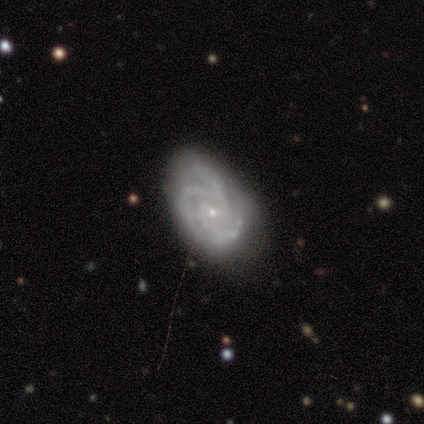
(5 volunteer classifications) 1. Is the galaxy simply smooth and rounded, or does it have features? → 100% featured or disk, 0% smooth, 0% star or artifact.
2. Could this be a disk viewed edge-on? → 100% no, 0% yes.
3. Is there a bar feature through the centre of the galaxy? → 60% no, 40% weak, 0% strong.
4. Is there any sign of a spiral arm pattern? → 100% yes, 0% no.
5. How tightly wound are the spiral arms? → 40% tight (tied), 40% medium (tied), 20% loose.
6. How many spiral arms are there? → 40% 3, 20% 2, 20% 4, 20% can't tell, 0% 1, 0% more than 4.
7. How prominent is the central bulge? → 100% small, 0% dominant, 0% large, 0% moderate, 0% none.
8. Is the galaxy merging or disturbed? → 60% none, 40% minor disturbance, 0% major disturbance, 0% merger.